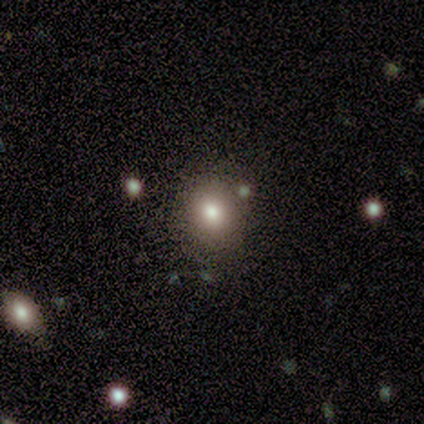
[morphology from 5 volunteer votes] Smooth or featured? star or artifact (60%)